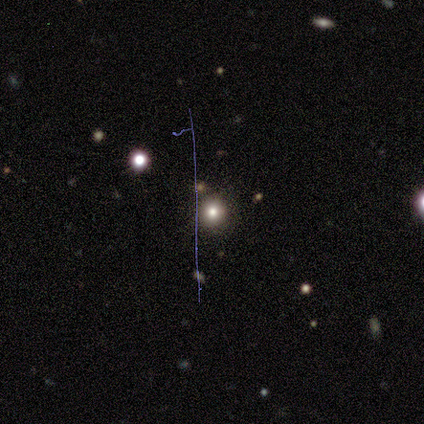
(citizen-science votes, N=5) A smooth galaxy with no disk features (60%) that is round (100%). Merging: none (100%).